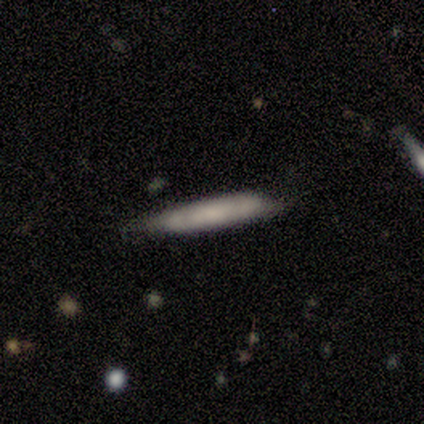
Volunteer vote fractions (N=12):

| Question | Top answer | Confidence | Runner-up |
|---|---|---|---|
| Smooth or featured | smooth | 83% | featured or disk (8%) |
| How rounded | cigar-shaped | 80% | in between (20%) |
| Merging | none | 55% | minor disturbance (27%) |